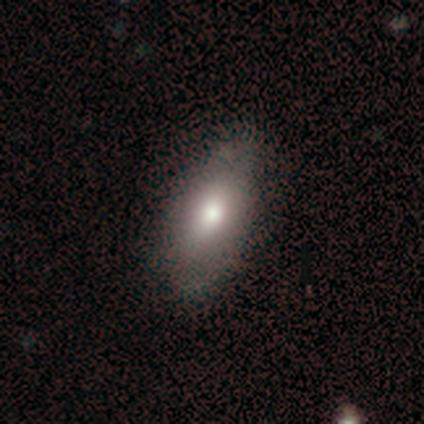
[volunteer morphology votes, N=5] Smooth or featured: smooth — 80% (featured or disk — 20%)
How rounded: in between — 100%
Merging: none — 40% (tied with minor disturbance — 40%)